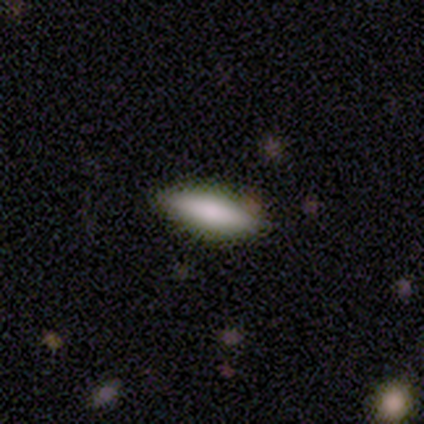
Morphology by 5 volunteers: smooth 80%, star or artifact 20%, featured or disk 0%. Down the decision tree: how rounded — in between (75%); merging — none (100%).